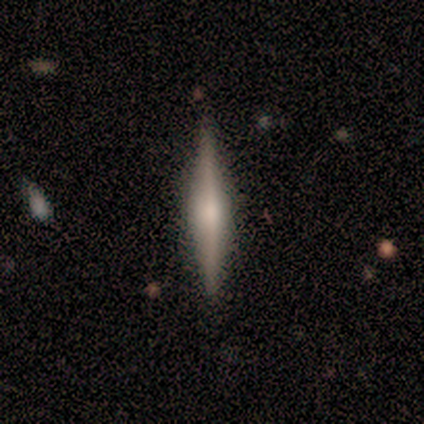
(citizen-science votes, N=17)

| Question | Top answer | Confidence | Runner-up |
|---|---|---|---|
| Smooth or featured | featured or disk | 65% | smooth (29%) |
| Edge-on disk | yes | 100% | — |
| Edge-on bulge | rounded | 64% | boxy (18%) |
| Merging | none | 81% | minor disturbance (19%) |